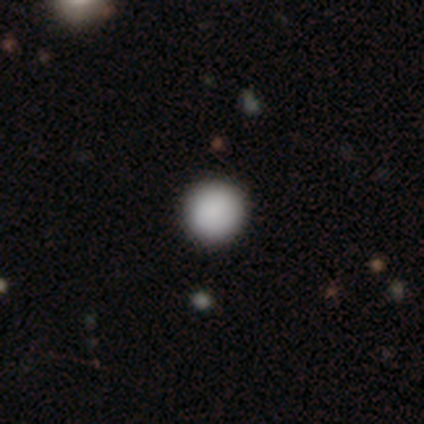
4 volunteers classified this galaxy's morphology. Q: Smooth or featured?
A: smooth (75%); runner-up: star or artifact (25%)
Q: How rounded?
A: round (100%)
Q: Merging?
A: none (100%)